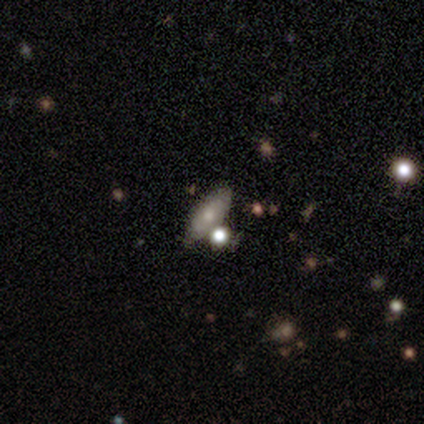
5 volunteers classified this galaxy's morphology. smooth-or-featured: smooth: 80% | featured or disk: 20% | star or artifact: 0%
  how-rounded: in between: 100% | round: 0% | cigar-shaped: 0%
  merging: none: 80% | minor disturbance: 20% | major disturbance: 0% | merger: 0%